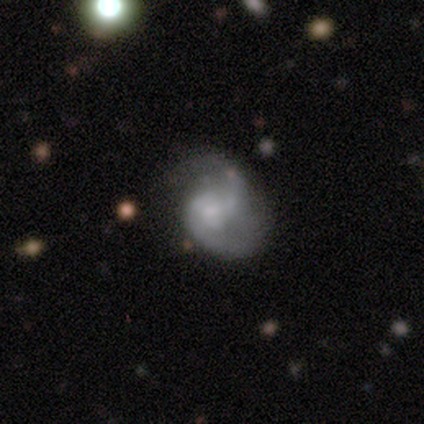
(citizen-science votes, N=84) featured or disk 79%, smooth 18%, star or artifact 4%. Down the decision tree: edge-on disk — no (98%); bar — no (65%); spiral arms — yes (88%); spiral arm count — 2 (74%); spiral winding — medium (56%); bulge size — small (46%); merging — none (44%).